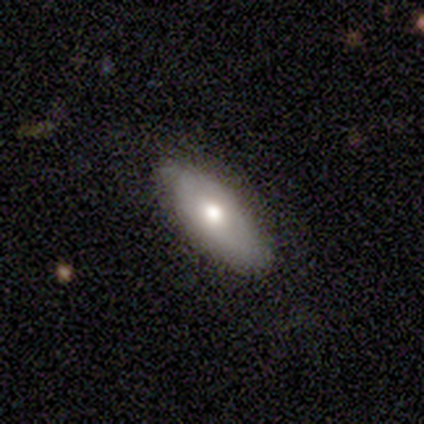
smooth 60%, featured or disk 40%, star or artifact 0%. Down the decision tree: how rounded — in between (67%); merging — none (60%).